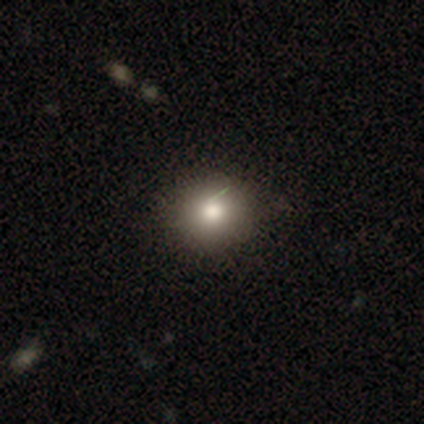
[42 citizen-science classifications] smooth-or-featured: smooth: 69% | star or artifact: 19% | featured or disk: 12%
  how-rounded: round: 90% | in between: 10% | cigar-shaped: 0%
  merging: none: 85% | minor disturbance: 12% | major disturbance: 3% | merger: 0%